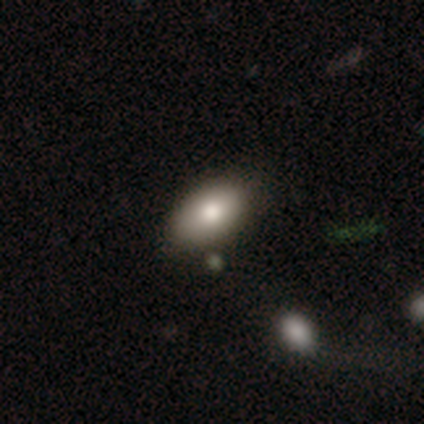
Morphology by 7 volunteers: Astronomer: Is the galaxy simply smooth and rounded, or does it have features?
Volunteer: smooth — 100%.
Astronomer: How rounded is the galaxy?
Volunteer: in between — 100%.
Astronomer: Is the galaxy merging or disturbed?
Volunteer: none — 57%.